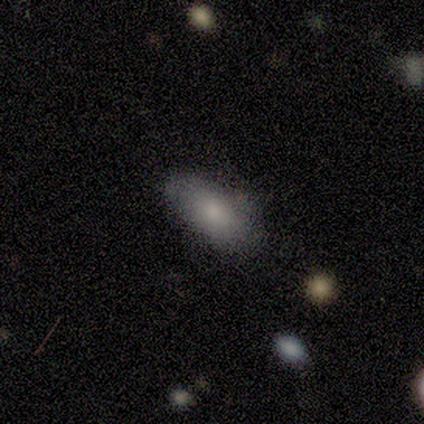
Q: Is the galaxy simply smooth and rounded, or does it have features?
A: smooth — 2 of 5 (40%, tied with featured or disk).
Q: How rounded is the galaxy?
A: in between — 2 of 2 (100%).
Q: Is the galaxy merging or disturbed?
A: none — 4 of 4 (100%).